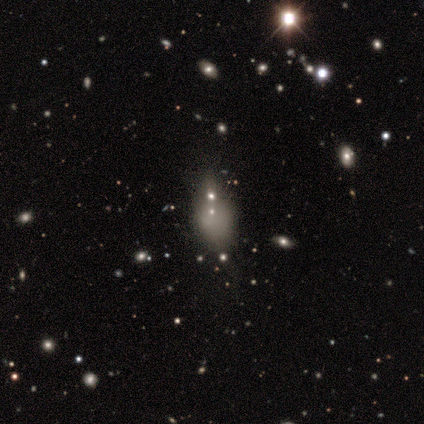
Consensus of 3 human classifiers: Smooth or featured? featured or disk (67%)
Edge-on disk? no (100%)
Bar? no (100%)
Spiral arms? no (100%)
Bulge size? small (50%, tied with none)
Merging? none (67%)